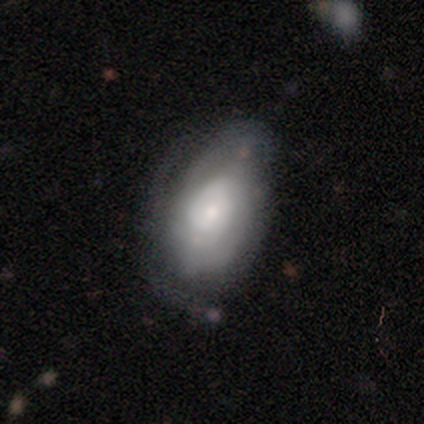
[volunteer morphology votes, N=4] A featured or disk galaxy (100%) with no bar (75%), 2 (50%, tied with 4) medium (50%, tied with loose) spiral arms (50%, tied with no) and a moderate central bulge (50%, tied with small). Merging: minor disturbance (100%).